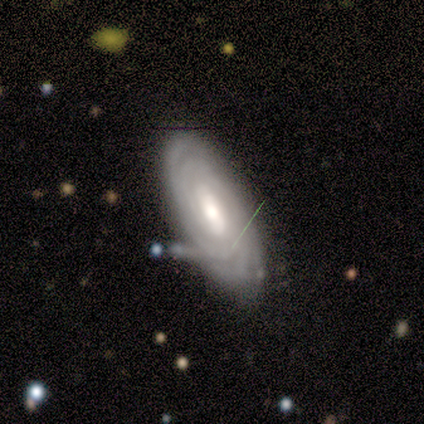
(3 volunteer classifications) smooth_or_featured: featured or disk (p=1.00)
disk_edge_on: no (p=1.00)
bar: weak (p=0.67) [alt: strong p=0.33]
has_spiral_arms: yes (p=1.00)
spiral_winding: tight (p=0.67) [alt: medium p=0.33]
spiral_arm_count: can't tell (p=0.67) [alt: 2 p=0.33]
bulge_size: moderate (p=1.00)
merging: minor disturbance (p=0.67) [alt: none p=0.33]